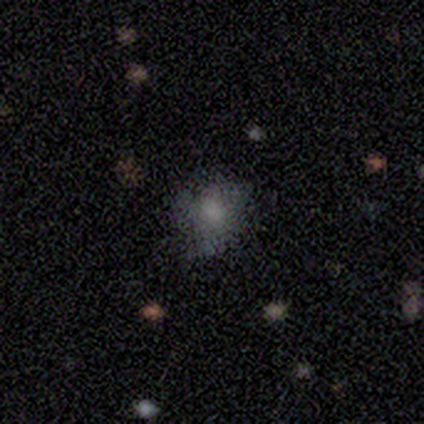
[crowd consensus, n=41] Smooth or featured? smooth (71%)
How rounded? round (59%)
Merging? none (52%)